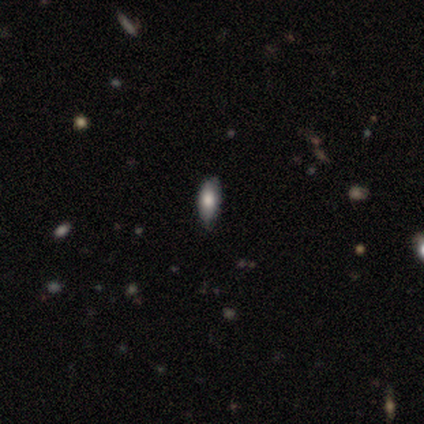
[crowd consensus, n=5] Smooth or featured? smooth (100%)
How rounded? in between (80%)
Merging? none (100%)